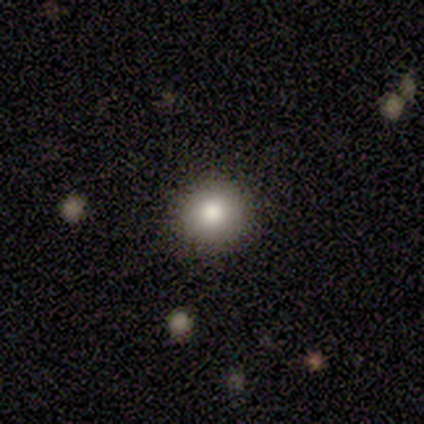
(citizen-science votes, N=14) Q: Smooth or featured?
A: smooth (79%); runner-up: featured or disk (21%)
Q: How rounded?
A: round (100%)
Q: Merging?
A: none (93%); runner-up: minor disturbance (7%)